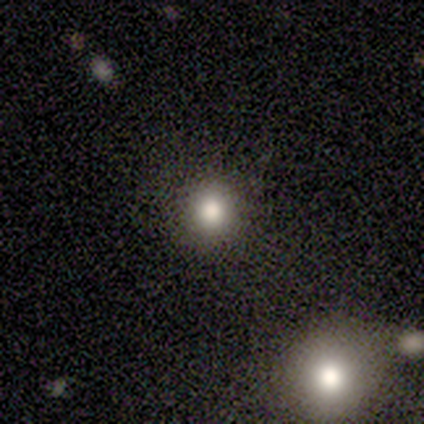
smooth 100%, featured or disk 0%, star or artifact 0%. Down the decision tree: how rounded — round (100%); merging — none (100%).